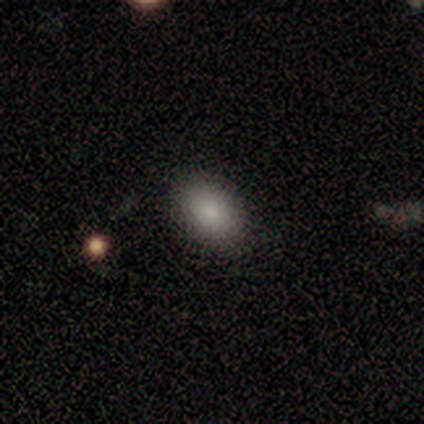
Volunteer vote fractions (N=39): Smooth or featured?
  - smooth: 82% *
  - star or artifact: 10%
  - featured or disk: 8%
How rounded?
  - in between: 81% *
  - round: 16%
  - cigar-shaped: 3%
Merging?
  - none: 86% *
  - minor disturbance: 11%
  - major disturbance: 3%
  - merger: 0%